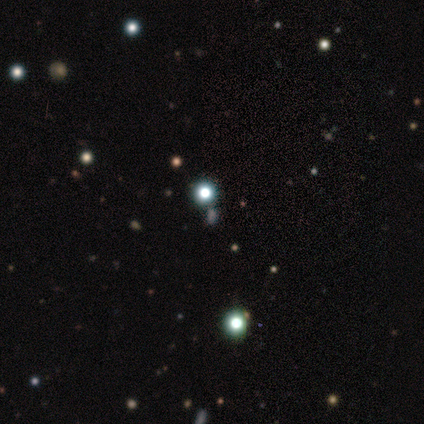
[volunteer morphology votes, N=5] Smooth or featured: smooth — 60% (star or artifact — 40%)
How rounded: round — 100%
Merging: none — 100%